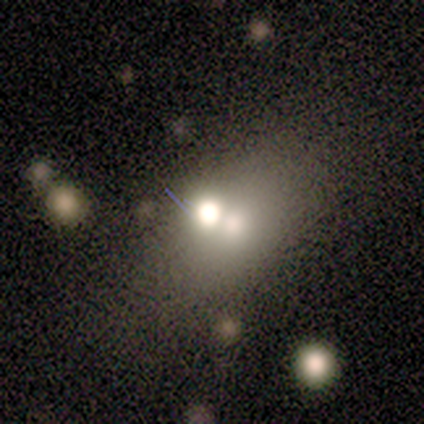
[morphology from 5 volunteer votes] Smooth or featured?
  - smooth: 60% *
  - featured or disk: 40%
  - star or artifact: 0%
How rounded?
  - in between: 67% *
  - round: 33%
  - cigar-shaped: 0%
Merging?
  - none: 60% *
  - minor disturbance: 20%
  - merger: 20%
  - major disturbance: 0%